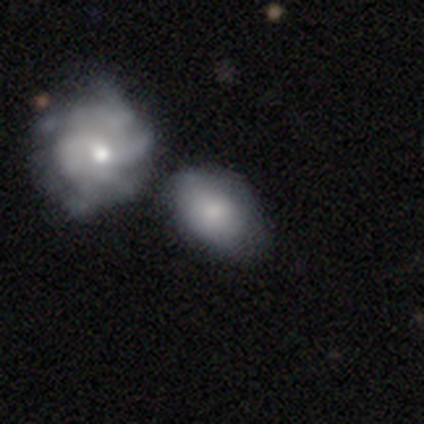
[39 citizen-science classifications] Volunteers were most divided on "merging": minor disturbance: 38%, none: 30%, merger: 24%, major disturbance: 8%. More confident: how rounded — in between (91%); smooth or featured — smooth (56%).